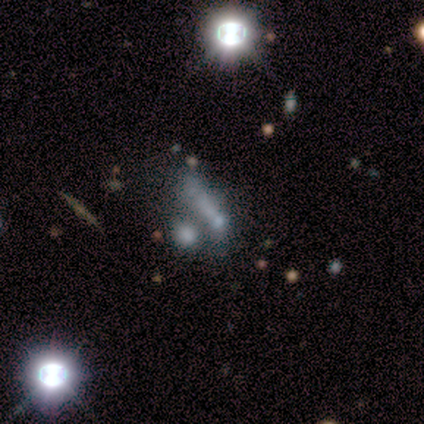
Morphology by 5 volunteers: A smooth galaxy with no disk features (40%, tied with featured or disk) that is in between round and cigar-shaped (50%, tied with cigar-shaped). Merging: merger (50%).